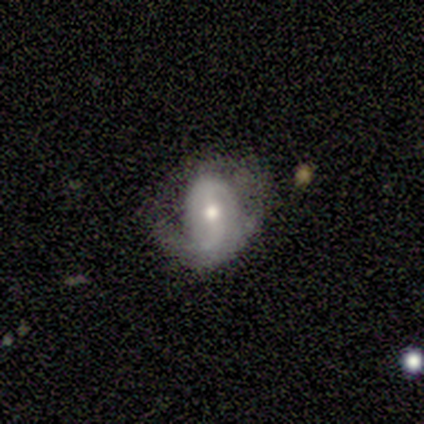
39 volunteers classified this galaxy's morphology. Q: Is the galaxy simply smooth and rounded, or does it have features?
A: featured or disk — 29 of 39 (74%).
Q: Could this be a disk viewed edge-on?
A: no — 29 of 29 (100%).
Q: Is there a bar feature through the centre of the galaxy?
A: weak — 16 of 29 (55%).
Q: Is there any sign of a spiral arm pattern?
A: yes — 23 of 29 (79%).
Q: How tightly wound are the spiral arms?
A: tight — 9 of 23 (39%).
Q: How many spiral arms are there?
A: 2 — 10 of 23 (43%).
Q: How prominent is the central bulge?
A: moderate — 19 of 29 (66%).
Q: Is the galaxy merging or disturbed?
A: minor disturbance — 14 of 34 (41%).